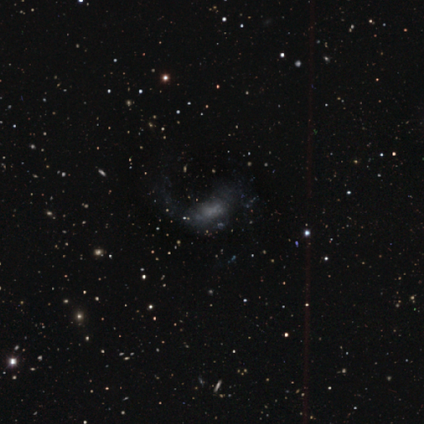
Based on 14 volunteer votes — smooth_or_featured: featured or disk (p=0.43) [alt: smooth p=0.36]
disk_edge_on: no (p=1.00)
bar: no (p=0.83) [alt: strong p=0.17]
has_spiral_arms: no (p=0.67) [alt: yes p=0.33]
bulge_size: none (p=0.67) [alt: moderate p=0.17]
merging: major disturbance (p=0.45) [alt: none p=0.36]